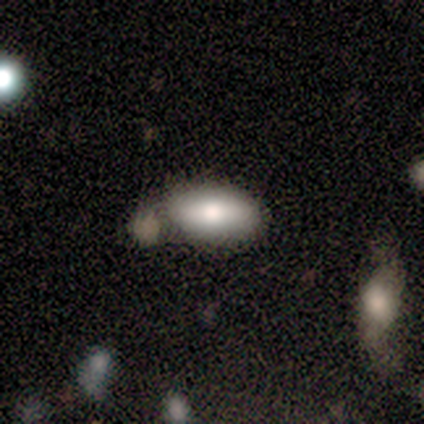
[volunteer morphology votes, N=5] Smooth or featured? smooth (60%)
How rounded? in between (100%)
Merging? none (60%)